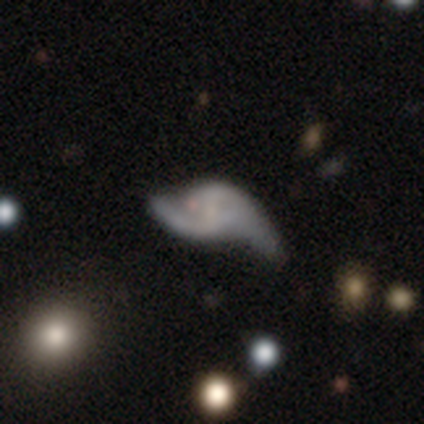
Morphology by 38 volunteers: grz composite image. It shows a featured or disk galaxy (89%) with a weak bar (45%, tied with no), 2 (93%) loose (72%) spiral arms (88%) and no central bulge (52%). Merging: none (41%).